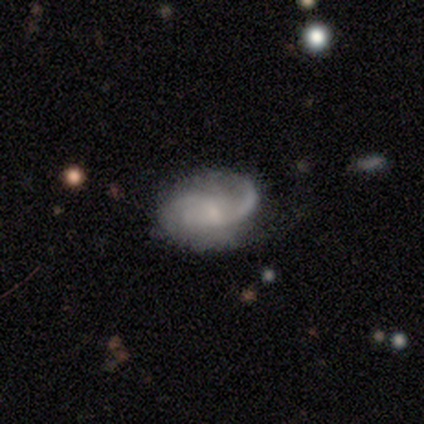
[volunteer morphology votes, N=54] Volunteers were most divided on "spiral winding": medium: 48%, tight: 30%, loose: 22%. Remaining: edge-on disk — no (100%); spiral arms — yes (98%); smooth or featured — featured or disk (76%); bar — no (63%); bulge size — small (51%); merging — none (50%); spiral arm count — 2 (48%).